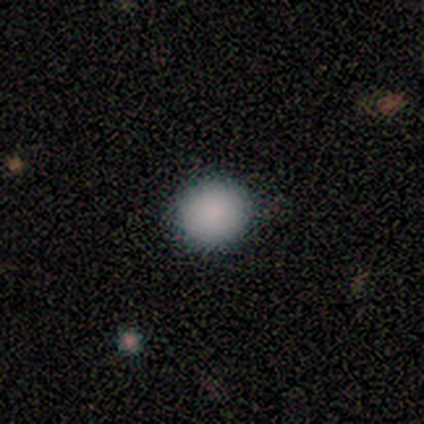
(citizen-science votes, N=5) Volunteers were most divided on "smooth or featured": smooth: 80%, star or artifact: 20%, featured or disk: 0%. More confident: how rounded — round (100%); merging — none (100%).